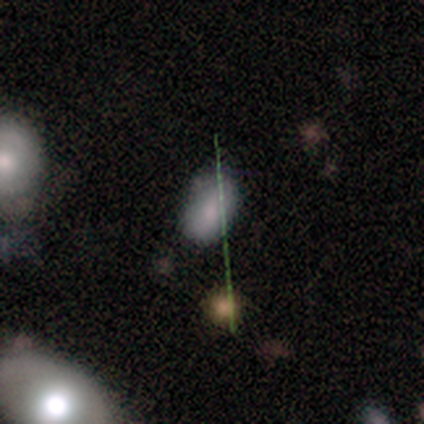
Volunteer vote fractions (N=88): Smooth or featured?
  - smooth: 69% *
  - star or artifact: 17%
  - featured or disk: 14%
How rounded?
  - in between: 95% *
  - round: 5%
  - cigar-shaped: 0%
Merging?
  - none: 67% *
  - minor disturbance: 23%
  - merger: 5%
  - major disturbance: 4%